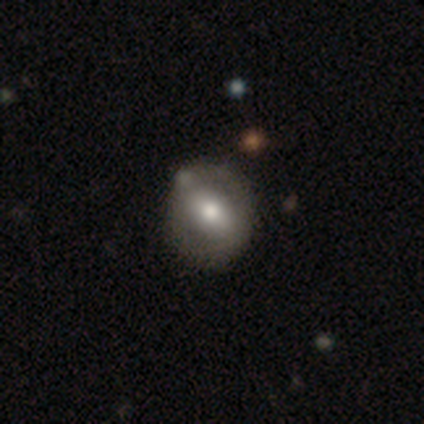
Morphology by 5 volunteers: Smooth or featured? 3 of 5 (60%) said smooth. How rounded? 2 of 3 (67%) said round. Merging? 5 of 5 (100%) said none.